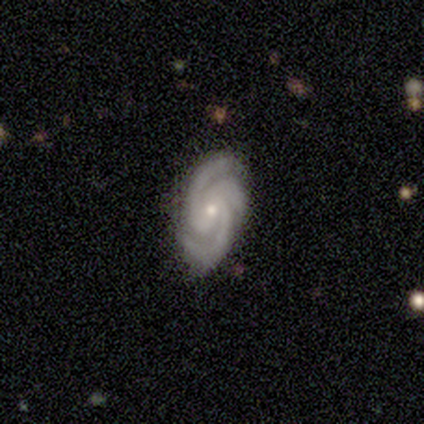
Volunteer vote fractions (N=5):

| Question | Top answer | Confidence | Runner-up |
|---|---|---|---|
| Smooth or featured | featured or disk | 80% | smooth (20%) |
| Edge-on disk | no | 100% | — |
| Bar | no | 75% | weak (25%) |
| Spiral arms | yes | 100% | — |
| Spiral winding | tight | 75% | medium (25%) |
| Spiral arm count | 3 | 75% | 2 (25%) |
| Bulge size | small | 100% | — |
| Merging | none | 60% | minor disturbance (40%) |